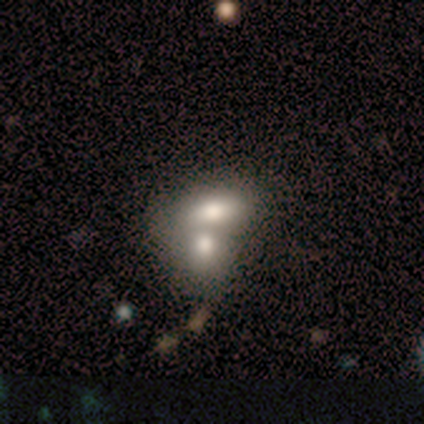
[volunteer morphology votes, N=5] Smooth or featured? 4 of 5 (80%) said smooth. How rounded? 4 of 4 (100%) said in between. Merging? 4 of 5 (80%) said merger.